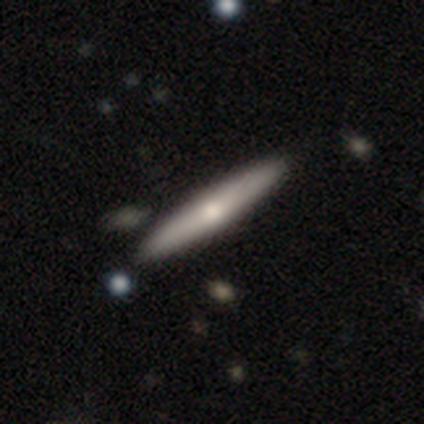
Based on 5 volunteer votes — Q: Smooth or featured?
A: featured or disk (60%); runner-up: smooth (20%)
Q: Edge-on disk?
A: yes (100%)
Q: Edge-on bulge?
A: rounded (100%)
Q: Merging?
A: none (100%)